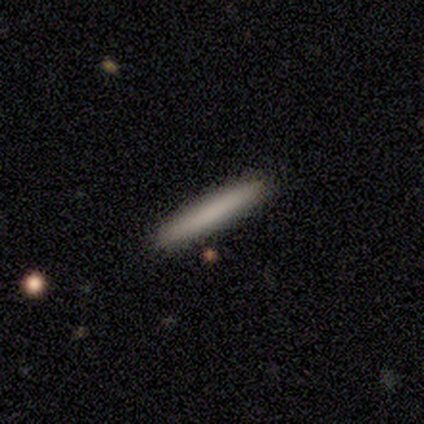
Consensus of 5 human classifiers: Smooth or featured?
  - smooth: 40% * (tied)
  - featured or disk: 40% * (tied)
  - star or artifact: 20%
How rounded?
  - cigar-shaped: 100% *
  - round: 0%
  - in between: 0%
Merging?
  - none: 100% *
  - minor disturbance: 0%
  - major disturbance: 0%
  - merger: 0%